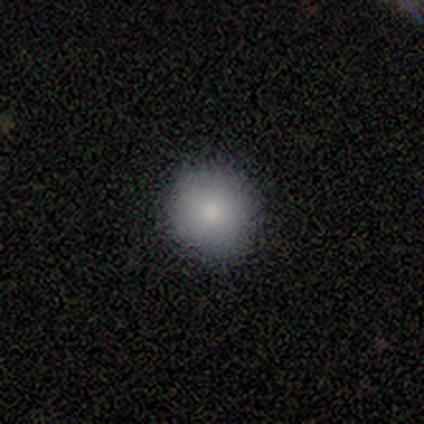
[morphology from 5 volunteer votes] Volunteers were most divided on "how rounded": round: 60%, in between: 40%, cigar-shaped: 0%. More confident: smooth or featured — smooth (100%); merging — none (60%).